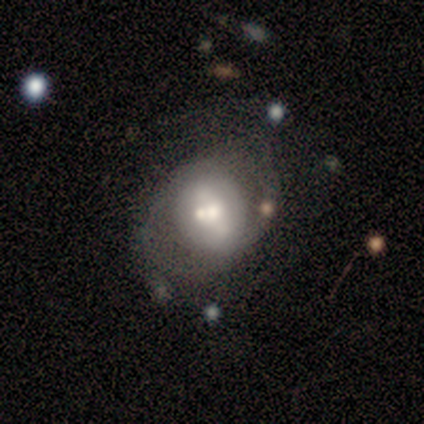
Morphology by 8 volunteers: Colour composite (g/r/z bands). It shows a featured or disk galaxy (75%) with no bar (50%), no spiral arms (75%) and a moderate central bulge (75%). Merging: none (50%).